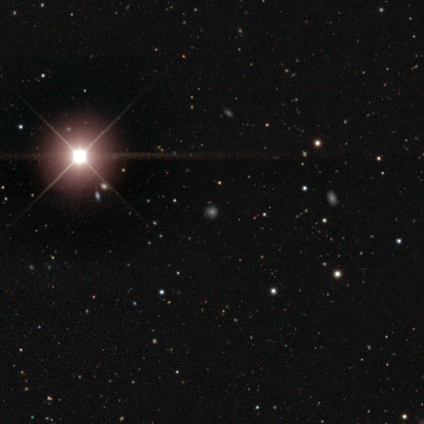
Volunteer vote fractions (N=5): This appears to be a star or artifact, not a galaxy (100%).